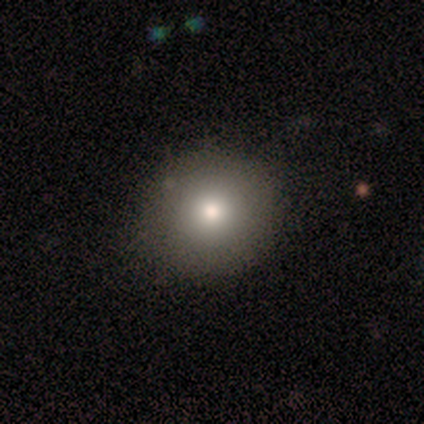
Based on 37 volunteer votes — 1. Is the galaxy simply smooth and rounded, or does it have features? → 84% smooth, 11% featured or disk, 5% star or artifact.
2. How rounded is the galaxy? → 84% round, 16% in between, 0% cigar-shaped.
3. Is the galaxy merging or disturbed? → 91% none, 9% minor disturbance, 0% major disturbance, 0% merger.